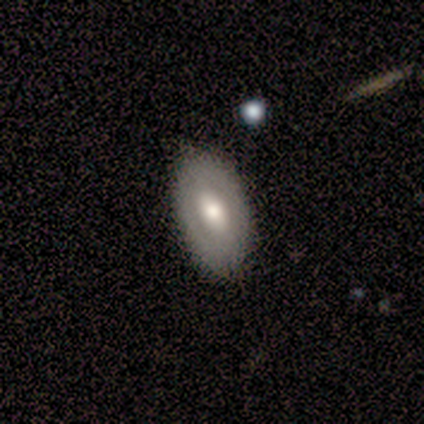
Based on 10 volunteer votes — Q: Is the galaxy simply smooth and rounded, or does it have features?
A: featured or disk — 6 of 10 (60%).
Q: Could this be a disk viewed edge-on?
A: no — 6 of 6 (100%).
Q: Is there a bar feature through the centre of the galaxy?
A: no — 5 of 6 (83%).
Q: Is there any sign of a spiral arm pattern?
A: no — 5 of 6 (83%).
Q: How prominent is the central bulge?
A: moderate — 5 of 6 (83%).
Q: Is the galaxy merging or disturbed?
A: none — 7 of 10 (70%).